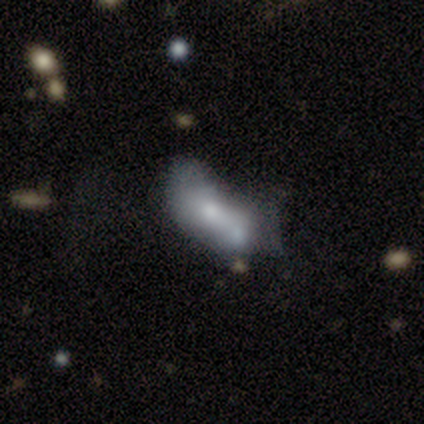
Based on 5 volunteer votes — Smooth or featured? 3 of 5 (60%) said smooth. How rounded? 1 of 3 (33%, tied with in between and cigar-shaped) said round. Merging? 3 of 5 (60%) said minor disturbance.